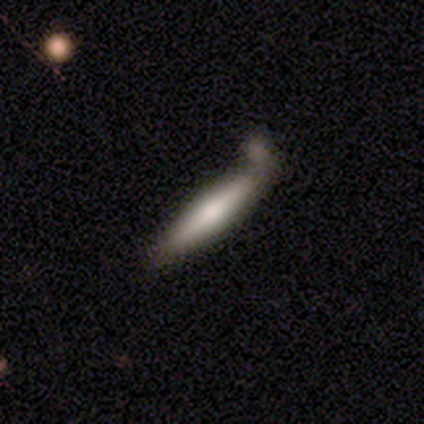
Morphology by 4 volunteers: smooth_or_featured: smooth (p=0.75) [alt: featured or disk p=0.25]
how_rounded: cigar-shaped (p=1.00)
merging: minor disturbance (p=0.50) [alt: none p=0.25]